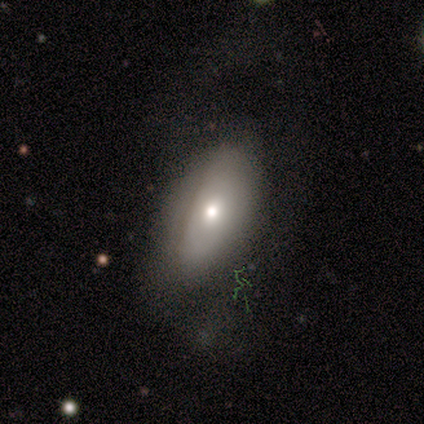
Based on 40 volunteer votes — Smooth or featured?
  - smooth: 57% *
  - featured or disk: 35%
  - star or artifact: 8%
How rounded?
  - in between: 96% *
  - cigar-shaped: 4%
  - round: 0%
Merging?
  - none: 68% *
  - minor disturbance: 19%
  - major disturbance: 14%
  - merger: 0%